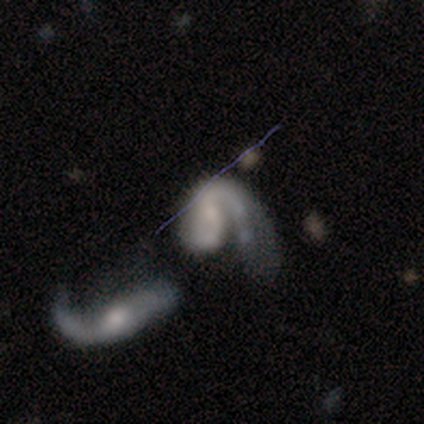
Smooth or featured? 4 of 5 (80%) said featured or disk. Edge-on disk? 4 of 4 (100%) said no. Bar? 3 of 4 (75%) said no. Spiral arms? 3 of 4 (75%) said yes. Spiral winding? 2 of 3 (67%) said loose. Spiral arm count? 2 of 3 (67%) said 2. Bulge size? 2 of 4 (50%) said small. Merging? 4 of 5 (80%) said merger.